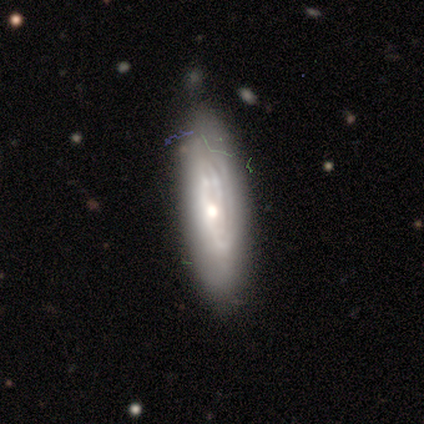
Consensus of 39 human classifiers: Morphology: type=featured or disk (74%); edge-on=no (72%); bar=no (95%); spiral arms=yes (81%); winding=tight (71%); arm count=can't tell (47%); bulge=moderate (48%); merging=none (76%).